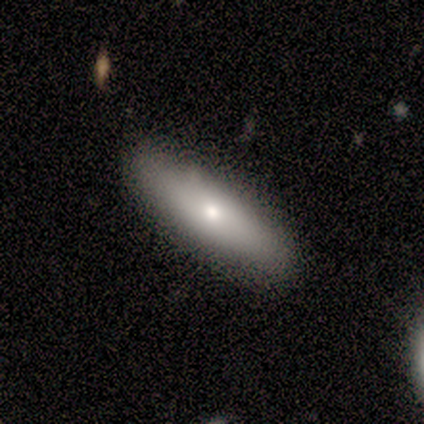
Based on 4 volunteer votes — Q: Smooth or featured?
A: featured or disk (75%); runner-up: smooth (25%)
Q: Edge-on disk?
A: no (100%)
Q: Bar?
A: no (100%)
Q: Spiral arms?
A: no (100%)
Q: Bulge size?
A: moderate (67%); runner-up: small (33%)
Q: Merging?
A: none (75%); runner-up: minor disturbance (25%)